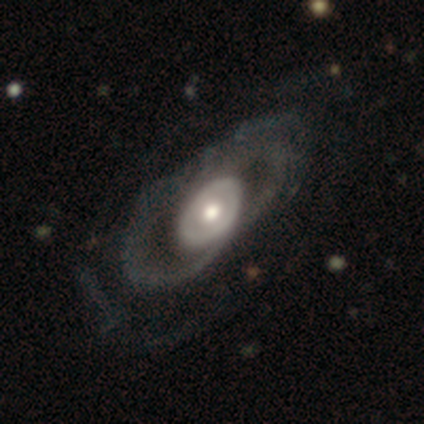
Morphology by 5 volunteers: Overall: featured or disk (80%). Edge-on disk: no (75%). Bar: no (100%). Spiral arms: no (100%). Bulge size: moderate (67%; large 33%). Merging: none (40%, tied with minor disturbance).